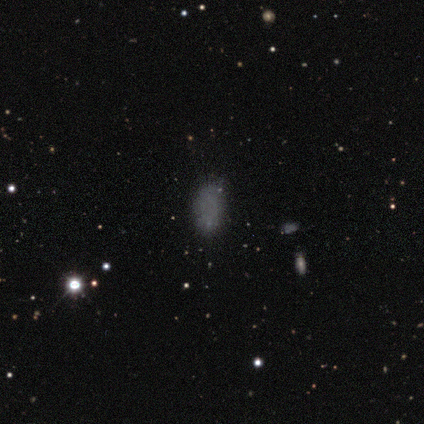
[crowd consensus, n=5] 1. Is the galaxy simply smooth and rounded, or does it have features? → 60% smooth, 20% featured or disk, 20% star or artifact.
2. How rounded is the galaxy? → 100% in between, 0% round, 0% cigar-shaped.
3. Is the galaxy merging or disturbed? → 50% none (tied), 50% minor disturbance (tied), 0% major disturbance, 0% merger.